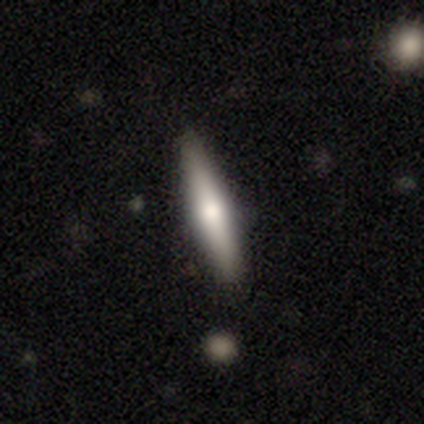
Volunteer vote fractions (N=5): featured or disk 60%, smooth 40%, star or artifact 0%. Down the decision tree: edge-on disk — yes (100%); edge-on bulge — rounded (100%); merging — none (60%).